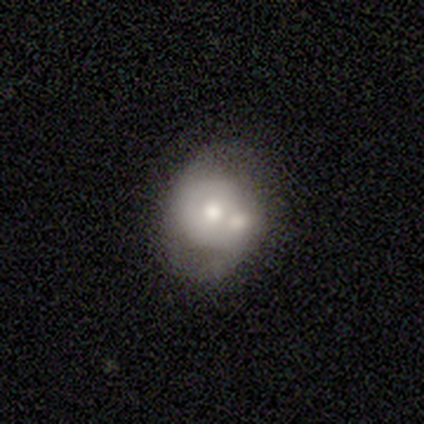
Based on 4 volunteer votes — Smooth or featured: featured or disk — 75% (smooth — 25%)
Edge-on disk: no — 100%
Bar: no — 67% (weak — 33%)
Spiral arms: yes — 67% (no — 33%)
Spiral winding: tight — 50% (tied with loose — 50%)
Spiral arm count: 2 — 50% (tied with 3 — 50%)
Bulge size: moderate — 100%
Merging: none — 50% (tied with merger — 50%)